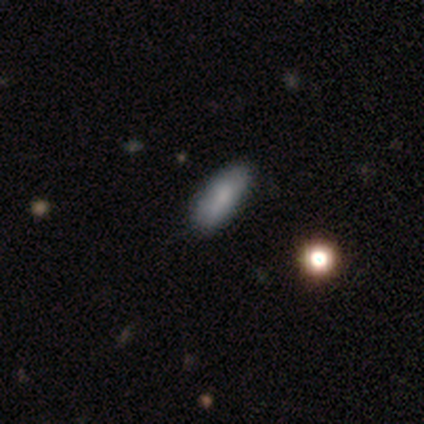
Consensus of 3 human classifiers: Smooth or featured?
  - smooth: 100% *
  - featured or disk: 0%
  - star or artifact: 0%
How rounded?
  - in between: 67% *
  - cigar-shaped: 33%
  - round: 0%
Merging?
  - none: 100% *
  - minor disturbance: 0%
  - major disturbance: 0%
  - merger: 0%